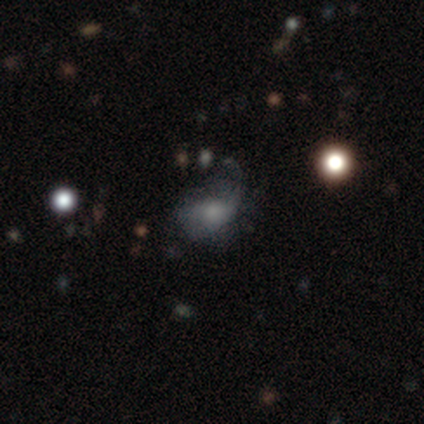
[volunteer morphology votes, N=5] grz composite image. It shows a smooth galaxy with no disk features (60%) that is in between round and cigar-shaped (67%). Merging: major disturbance (100%).